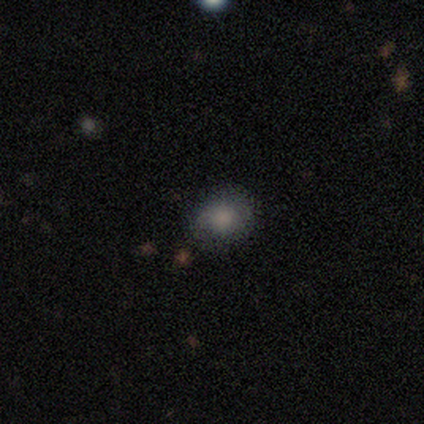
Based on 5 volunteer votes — Smooth or featured?
  - smooth: 80% *
  - featured or disk: 20%
  - star or artifact: 0%
How rounded?
  - round: 50% * (tied)
  - in between: 50% * (tied)
  - cigar-shaped: 0%
Merging?
  - none: 60% *
  - minor disturbance: 40%
  - major disturbance: 0%
  - merger: 0%